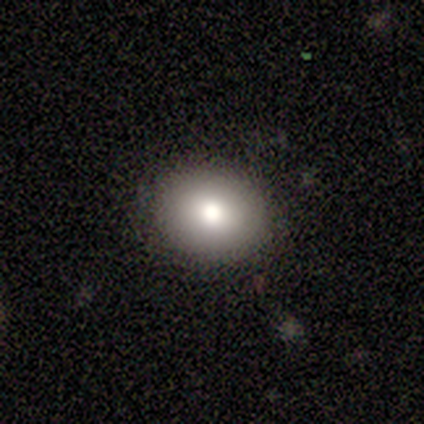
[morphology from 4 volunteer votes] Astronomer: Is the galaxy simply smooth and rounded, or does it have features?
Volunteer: smooth — 100%.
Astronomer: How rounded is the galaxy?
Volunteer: round — 75%.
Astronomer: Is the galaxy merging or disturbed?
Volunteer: none — 100%.